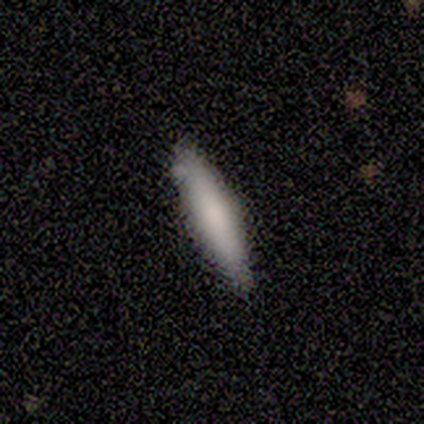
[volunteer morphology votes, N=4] Smooth or featured? 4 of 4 (100%) said smooth. How rounded? 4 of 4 (100%) said cigar-shaped. Merging? 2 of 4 (50%) said none.